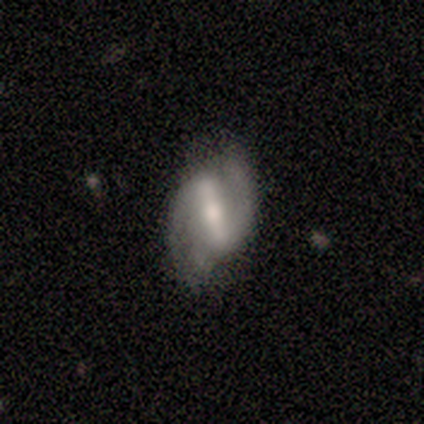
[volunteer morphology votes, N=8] Volunteers were most divided on "bulge size": moderate: 62%, large: 25%, small: 12%, dominant: 0%, none: 0%. More confident: smooth or featured — featured or disk (100%); edge-on disk — no (100%); spiral arms — yes (100%); bar — strong (88%); spiral winding — medium (88%); spiral arm count — 2 (88%); merging — none (75%).